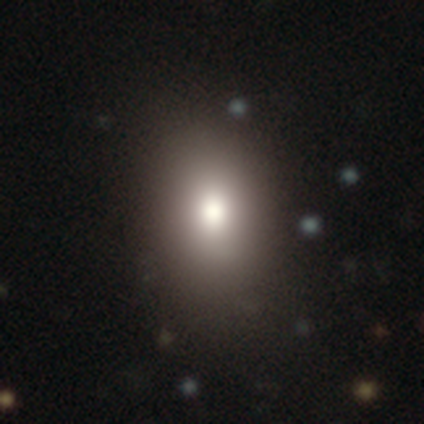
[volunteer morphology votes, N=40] Smooth or featured: smooth — 75% (featured or disk — 15%)
How rounded: in between — 77% (round — 20%)
Merging: none — 78% (minor disturbance — 14%)